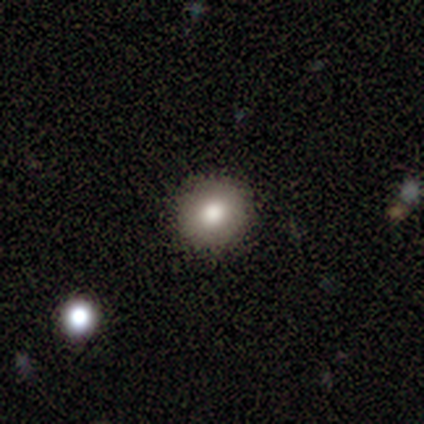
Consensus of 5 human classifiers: A smooth galaxy with no disk features (60%) that is round (67%). Merging: none (100%).